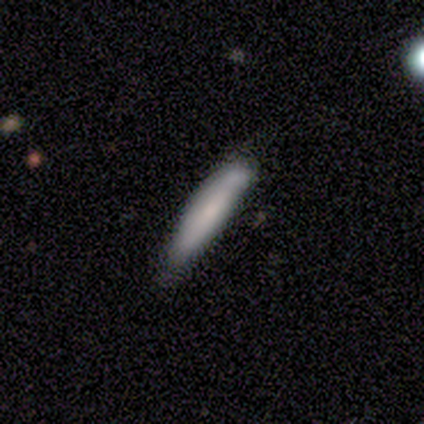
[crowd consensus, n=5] smooth 80%, featured or disk 20%, star or artifact 0%. Down the decision tree: how rounded — cigar-shaped (75%); merging — none (80%).